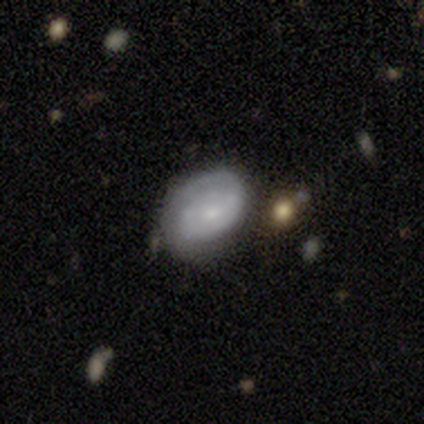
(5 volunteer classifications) smooth-or-featured: featured or disk: 60% | smooth: 20% | star or artifact: 20%
  disk-edge-on: no: 100% | yes: 0%
    bar: no: 67% | strong: 33% | weak: 0%
    has-spiral-arms: yes: 67% | no: 33%
      spiral-winding: tight: 50% (tied) | medium: 50% (tied) | loose: 0%
      spiral-arm-count: 2: 50% (tied) | can't tell: 50% (tied) | 1: 0% | 3: 0% | 4: 0% | more than 4: 0%
    bulge-size: moderate: 67% | small: 33% | dominant: 0% | large: 0% | none: 0%
  merging: none: 75% | minor disturbance: 25% | major disturbance: 0% | merger: 0%